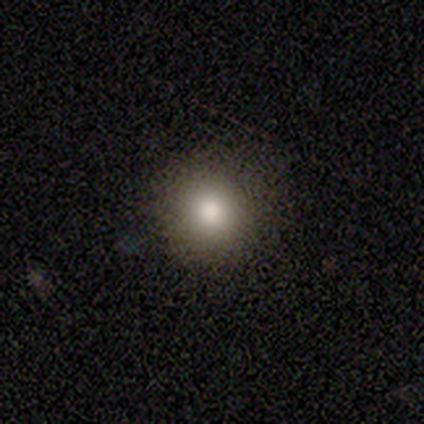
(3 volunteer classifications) Smooth or featured? 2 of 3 (67%) said smooth. How rounded? 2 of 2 (100%) said round. Merging? 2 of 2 (100%) said none.